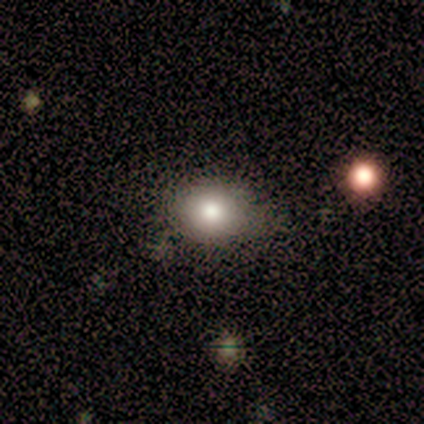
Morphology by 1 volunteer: Smooth or featured? 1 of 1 (100%) said smooth. How rounded? 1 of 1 (100%) said round. Merging? 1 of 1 (100%) said none.